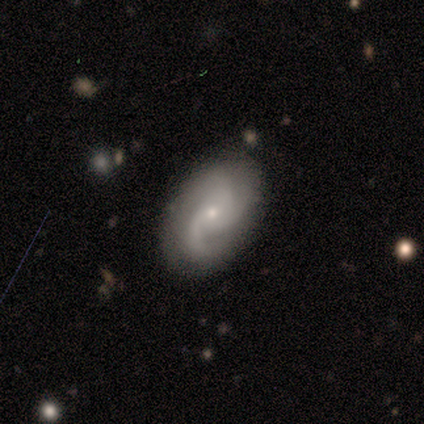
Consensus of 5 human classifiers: Q: Smooth or featured?
A: featured or disk (100%)
Q: Edge-on disk?
A: no (100%)
Q: Bar?
A: no (80%); runner-up: weak (20%)
Q: Spiral arms?
A: yes (100%)
Q: Spiral winding?
A: medium (60%); runner-up: tight (20%)
Q: Spiral arm count?
A: 3 (60%); runner-up: 2 (20%)
Q: Bulge size?
A: small (80%); runner-up: moderate (20%)
Q: Merging?
A: none (80%); runner-up: minor disturbance (20%)